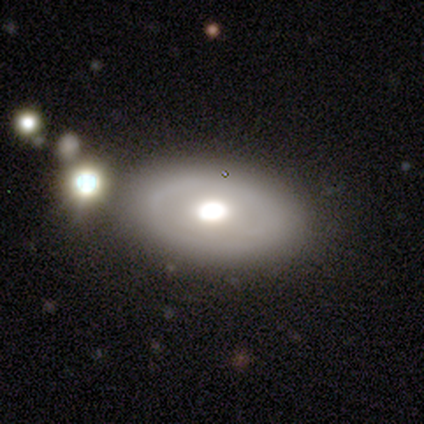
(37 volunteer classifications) smooth-or-featured: featured or disk: 54% | smooth: 46% | star or artifact: 0%
  disk-edge-on: no: 95% | yes: 5%
    bar: no: 100% | strong: 0% | weak: 0%
    has-spiral-arms: no: 95% | yes: 5%
    bulge-size: moderate: 47% | large: 37% | dominant: 16% | small: 0% | none: 0%
  merging: none: 65% | minor disturbance: 19% | merger: 11% | major disturbance: 5%